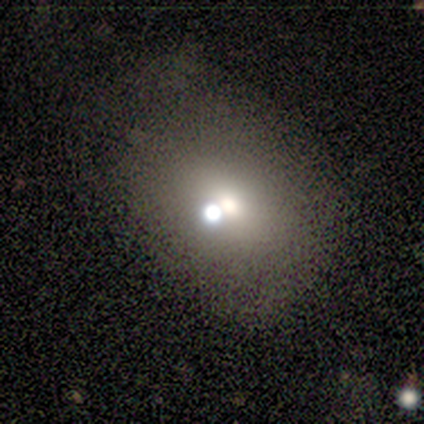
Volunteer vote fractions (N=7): Morphology: type=smooth (71%); roundness=in between (60%); merging=none (33%, tied with merger).